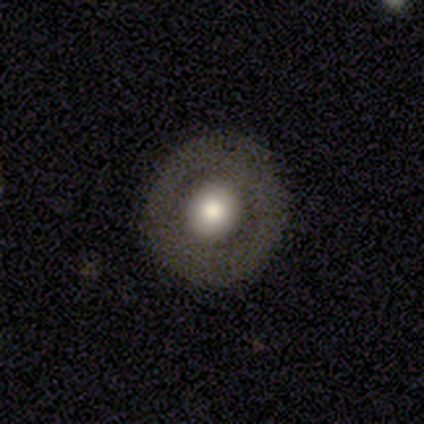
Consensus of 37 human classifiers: Volunteers were most divided on "smooth or featured": smooth: 57%, featured or disk: 43%, star or artifact: 0%. More confident: how rounded — round (90%); merging — none (89%).